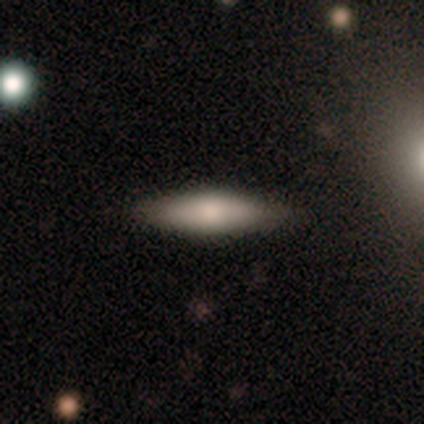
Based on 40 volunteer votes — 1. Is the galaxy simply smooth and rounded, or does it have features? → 70% smooth, 25% featured or disk, 5% star or artifact.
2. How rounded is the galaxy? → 64% cigar-shaped, 36% in between, 0% round.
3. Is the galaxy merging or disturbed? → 92% none, 8% minor disturbance, 0% major disturbance, 0% merger.